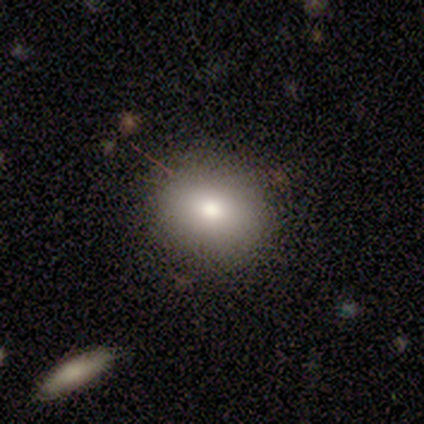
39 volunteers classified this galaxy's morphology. This is likely a smooth galaxy (77%). How rounded: possibly round (50%, tied with in between). Merging: clearly none (84%).